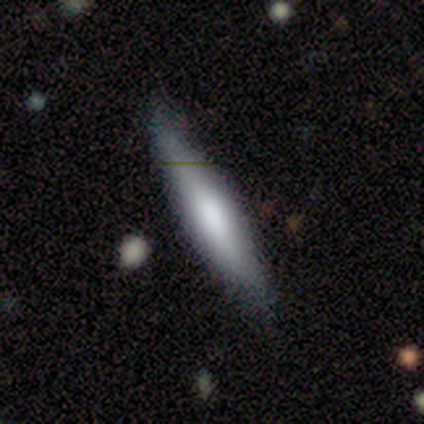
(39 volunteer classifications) Smooth or featured: smooth — 62% (featured or disk — 33%)
How rounded: cigar-shaped — 67% (in between — 33%)
Merging: none — 70% (minor disturbance — 22%)